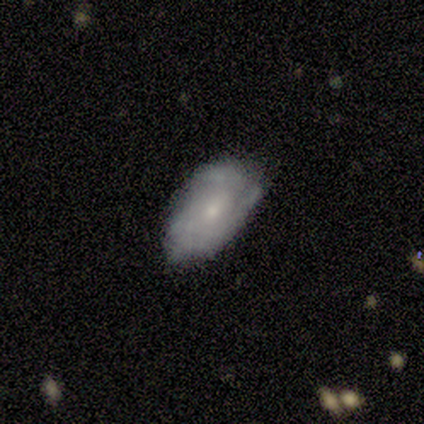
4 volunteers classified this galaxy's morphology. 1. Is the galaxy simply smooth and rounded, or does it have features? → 75% featured or disk, 25% smooth, 0% star or artifact.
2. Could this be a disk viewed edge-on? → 100% no, 0% yes.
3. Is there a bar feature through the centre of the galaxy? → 100% no, 0% strong, 0% weak.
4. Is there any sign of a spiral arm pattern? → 100% yes, 0% no.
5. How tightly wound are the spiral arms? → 67% tight, 33% medium, 0% loose.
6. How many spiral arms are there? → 100% can't tell, 0% 1, 0% 2, 0% 3, 0% 4, 0% more than 4.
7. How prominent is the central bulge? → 100% small, 0% dominant, 0% large, 0% moderate, 0% none.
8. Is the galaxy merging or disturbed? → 100% none, 0% minor disturbance, 0% major disturbance, 0% merger.